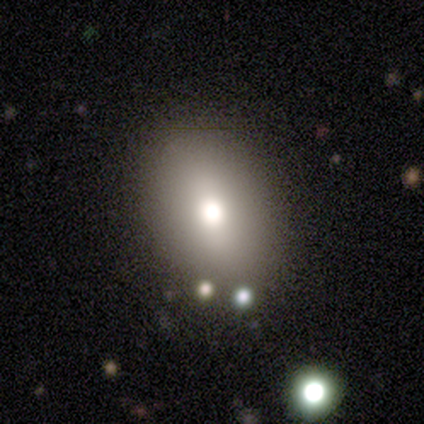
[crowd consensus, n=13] A smooth galaxy with no disk features (77%) that is in between round and cigar-shaped (90%).

Vote fractions:
- Smooth or featured? smooth: 77% / featured or disk: 23% / star or artifact: 0%
- How rounded? in between: 90% / round: 10% / cigar-shaped: 0%
- Merging? none: 100% / minor disturbance: 0% / major disturbance: 0% / merger: 0%